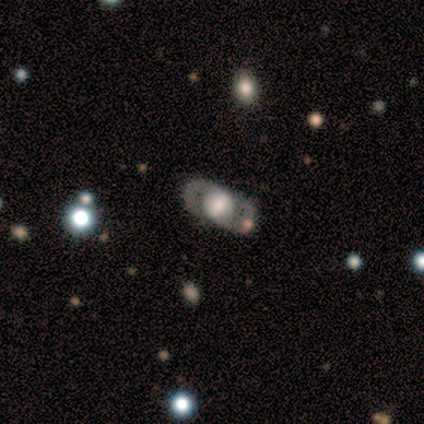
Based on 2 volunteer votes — A featured or disk galaxy (100%) with no bar (100%), 2 (100%) medium (100%) spiral arms (50%, tied with no) and a large central bulge (50%, tied with small).

Vote fractions:
- Smooth or featured? featured or disk: 100% / smooth: 0% / star or artifact: 0%
- Edge-on disk? no: 100% / yes: 0%
- Bar? no: 100% / strong: 0% / weak: 0%
- Spiral arms? yes: 50% (tied) / no: 50% (tied)
- Spiral winding? medium: 100% / tight: 0% / loose: 0%
- Spiral arm count? 2: 100% / 1: 0% / 3: 0% / 4: 0% / more than 4: 0% / can't tell: 0%
- Bulge size? large: 50% (tied) / small: 50% (tied) / dominant: 0% / moderate: 0% / none: 0%
- Merging? none: 50% (tied) / major disturbance: 50% (tied) / minor disturbance: 0% / merger: 0%